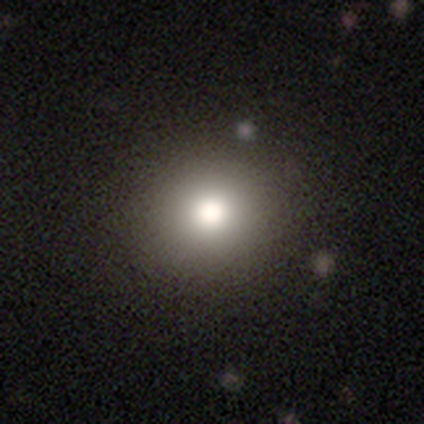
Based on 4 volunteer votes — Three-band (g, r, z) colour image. It shows a featured or disk galaxy (50%) with no bar (100%), no spiral arms (100%) and a dominant central bulge (50%, tied with moderate). Merging: none (100%).